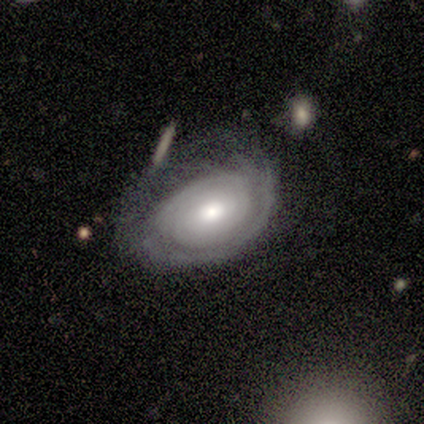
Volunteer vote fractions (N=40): Overall: featured or disk (70%). Edge-on disk: no (96%). Bar: no (89%). Spiral arms: yes (78%). Spiral arm count: can't tell (52%; 1 14%). Spiral winding: tight (86%). Bulge size: moderate (52%; small 22%). Merging: minor disturbance (42%; none 29%).